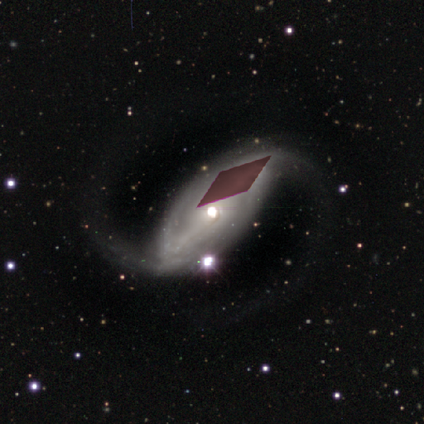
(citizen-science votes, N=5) smooth_or_featured: featured or disk (p=0.80) [alt: smooth p=0.20]
disk_edge_on: no (p=1.00)
bar: no (p=1.00)
has_spiral_arms: yes (p=0.50) [tied with: no p=0.50]
spiral_winding: loose (p=1.00)
spiral_arm_count: 2 (p=1.00)
bulge_size: moderate (p=1.00)
merging: none (p=0.40) [tied with: major disturbance p=0.40]